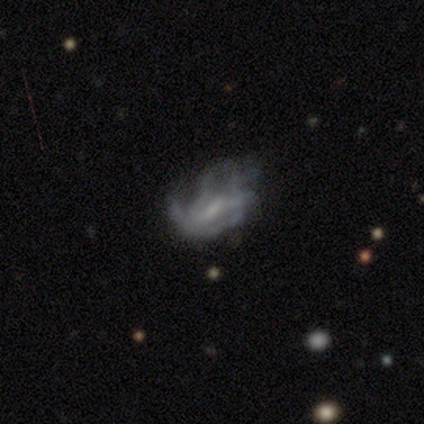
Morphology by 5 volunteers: A featured or disk galaxy (100%) with a strong bar (40%, tied with weak), no spiral arms (60%) and a moderate central bulge (40%, tied with small). Merging: minor disturbance (40%, tied with major disturbance).